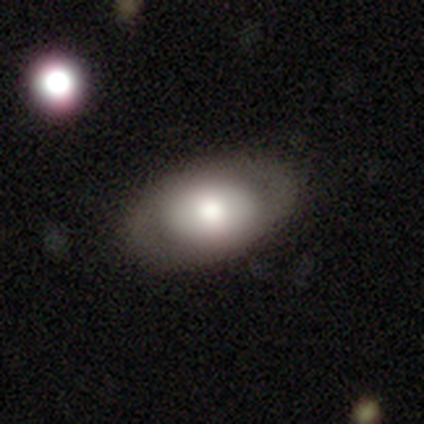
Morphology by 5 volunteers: Overall: smooth (80%). How rounded: in between (100%). Merging: none (60%; minor disturbance 40%).